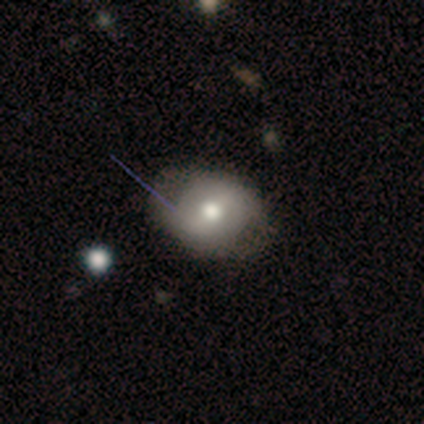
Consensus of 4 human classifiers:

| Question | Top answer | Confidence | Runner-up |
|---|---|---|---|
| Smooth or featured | smooth | 100% | — |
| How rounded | round | 75% | in between (25%) |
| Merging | none | 75% | minor disturbance (25%) |